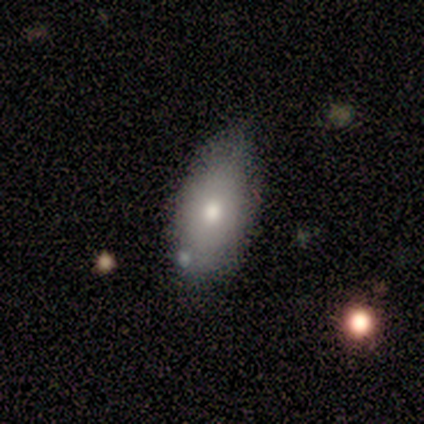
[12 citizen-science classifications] Smooth or featured: smooth — 92% (featured or disk — 8%)
How rounded: in between — 100%
Merging: none — 75% (minor disturbance — 17%)